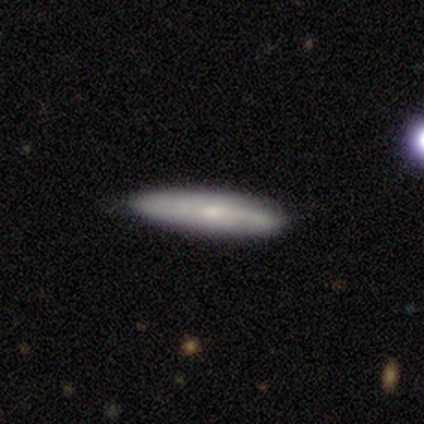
Overall: smooth (40%, tied with featured or disk). How rounded: cigar-shaped (100%). Merging: none (75%).